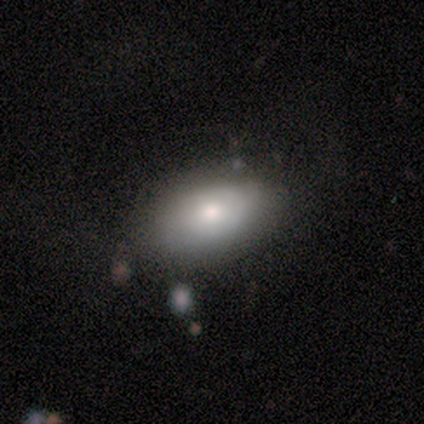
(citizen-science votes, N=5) Smooth or featured? 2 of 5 (40%, tied with featured or disk) said smooth. How rounded? 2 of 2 (100%) said in between. Merging? 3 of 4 (75%) said none.